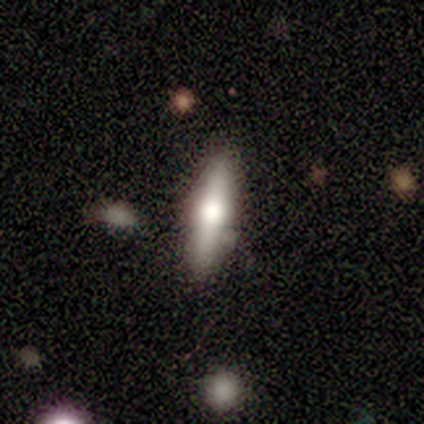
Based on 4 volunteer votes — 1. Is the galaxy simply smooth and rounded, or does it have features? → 75% smooth, 25% featured or disk, 0% star or artifact.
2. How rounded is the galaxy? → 100% cigar-shaped, 0% round, 0% in between.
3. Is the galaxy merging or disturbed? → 75% none, 25% minor disturbance, 0% major disturbance, 0% merger.